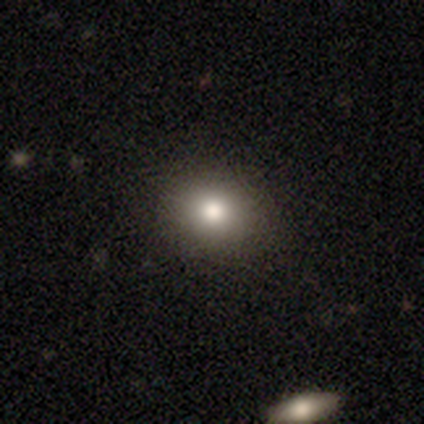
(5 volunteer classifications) smooth 80%, star or artifact 20%, featured or disk 0%. Down the decision tree: how rounded — in between (75%); merging — none (75%).